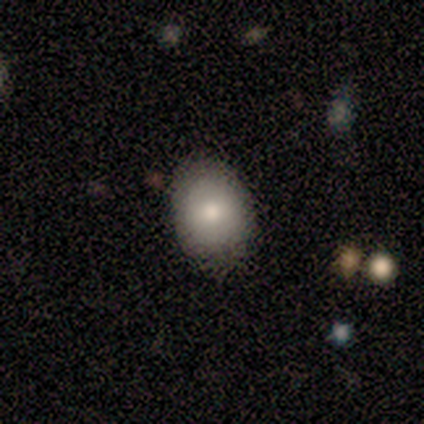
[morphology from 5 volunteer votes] type=smooth (60%); roundness=in between (100%); merging=none (80%).